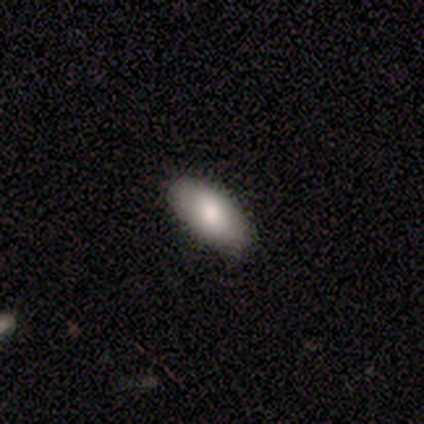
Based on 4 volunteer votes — A smooth galaxy with no disk features (50%) that is in between round and cigar-shaped (100%).

Vote fractions:
- Smooth or featured? smooth: 50% / featured or disk: 25% / star or artifact: 25%
- How rounded? in between: 100% / round: 0% / cigar-shaped: 0%
- Merging? none: 100% / minor disturbance: 0% / major disturbance: 0% / merger: 0%